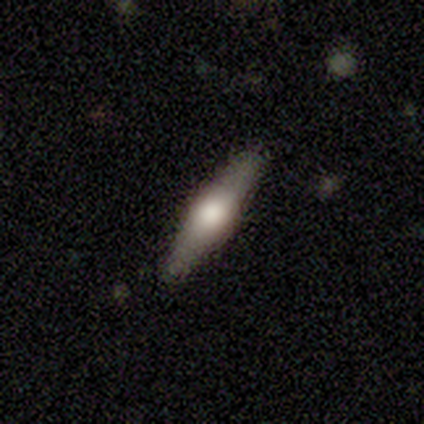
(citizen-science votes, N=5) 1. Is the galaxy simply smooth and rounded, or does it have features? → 60% featured or disk, 40% smooth, 0% star or artifact.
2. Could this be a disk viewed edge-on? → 100% yes, 0% no.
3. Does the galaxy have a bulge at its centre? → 100% rounded, 0% boxy, 0% none.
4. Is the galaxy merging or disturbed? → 100% none, 0% minor disturbance, 0% major disturbance, 0% merger.